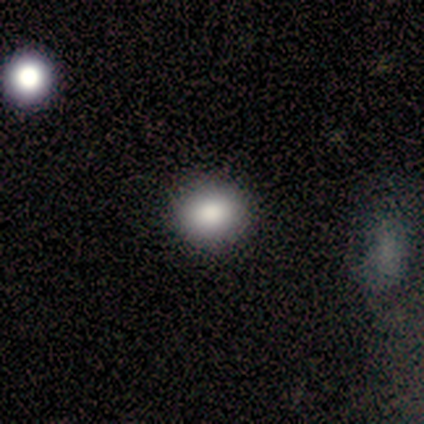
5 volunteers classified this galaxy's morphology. This is clearly a smooth galaxy (80%). How rounded: likely round (75%). Merging: clearly none (100%).